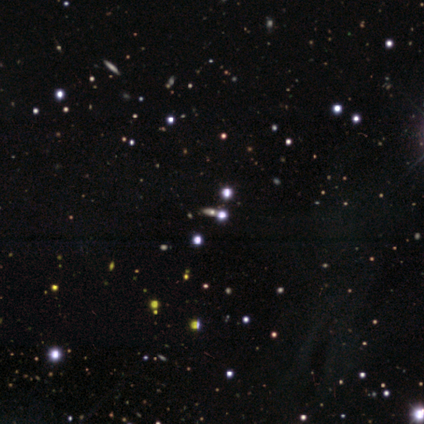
A star or artifact, not a galaxy (100%).